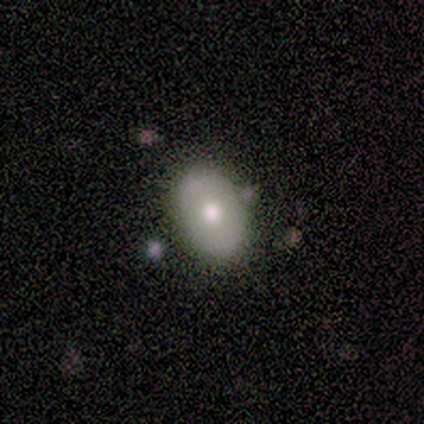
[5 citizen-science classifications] Smooth or featured?
  - smooth: 80% *
  - featured or disk: 20%
  - star or artifact: 0%
How rounded?
  - in between: 100% *
  - round: 0%
  - cigar-shaped: 0%
Merging?
  - none: 100% *
  - minor disturbance: 0%
  - major disturbance: 0%
  - merger: 0%